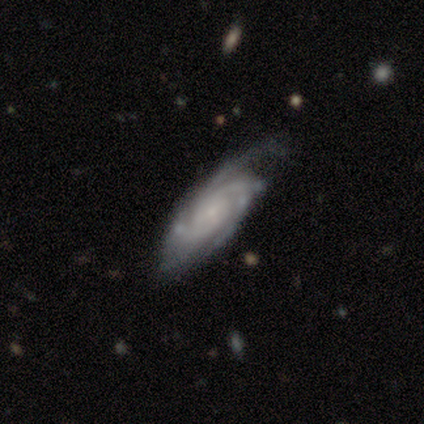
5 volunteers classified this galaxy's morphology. type=featured or disk (80%); edge-on=yes (50%, tied with no); edge-on bulge=rounded (100%); merging=none (80%).